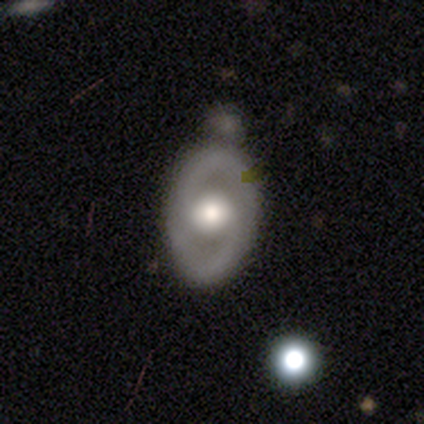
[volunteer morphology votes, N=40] Smooth or featured?
  - featured or disk: 72% *
  - smooth: 25%
  - star or artifact: 2%
Edge-on disk?
  - no: 93% *
  - yes: 7%
Bar?
  - no: 63% *
  - weak: 22%
  - strong: 15%
Spiral arms?
  - yes: 56% *
  - no: 44%
Spiral winding?
  - medium: 47% *
  - tight: 33%
  - loose: 20%
Spiral arm count?
  - 2: 93% *
  - can't tell: 7%
  - 1: 0%
  - 3: 0%
  - 4: 0%
  - more than 4: 0%
Bulge size?
  - moderate: 56% *
  - large: 44%
  - dominant: 0%
  - small: 0%
  - none: 0%
Merging?
  - none: 64% *
  - minor disturbance: 18%
  - merger: 13%
  - major disturbance: 5%